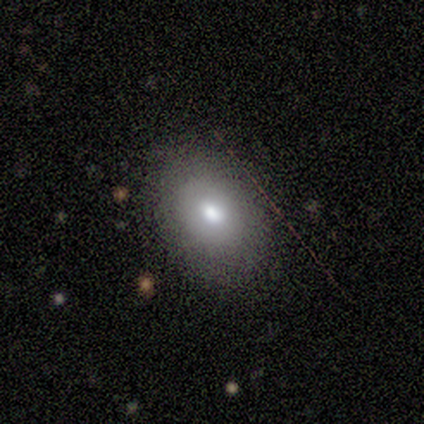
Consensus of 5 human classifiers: smooth_or_featured: smooth (p=1.00)
how_rounded: in between (p=1.00)
merging: none (p=1.00)